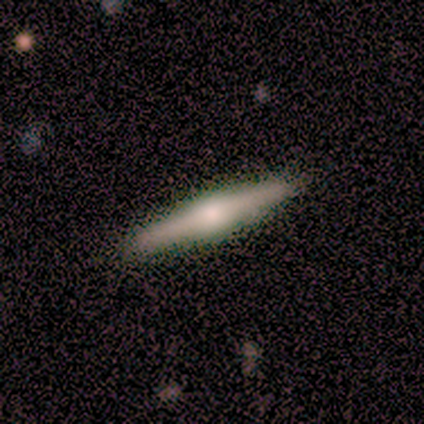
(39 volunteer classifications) A featured or disk galaxy (74%) viewed edge-on (100%) with a rounded central bulge (93%). Merging: none (89%).